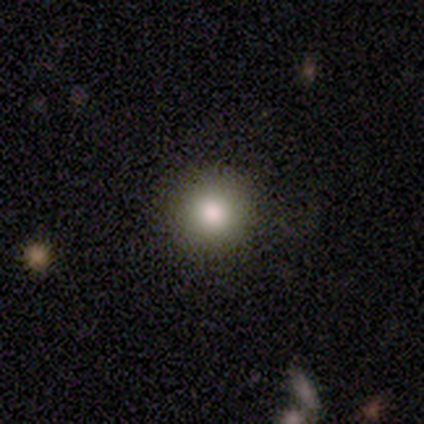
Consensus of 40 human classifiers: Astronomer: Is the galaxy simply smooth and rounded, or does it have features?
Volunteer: smooth — 80%.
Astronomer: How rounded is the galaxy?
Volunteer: round — 97%.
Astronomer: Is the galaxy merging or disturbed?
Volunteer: none — 92%.